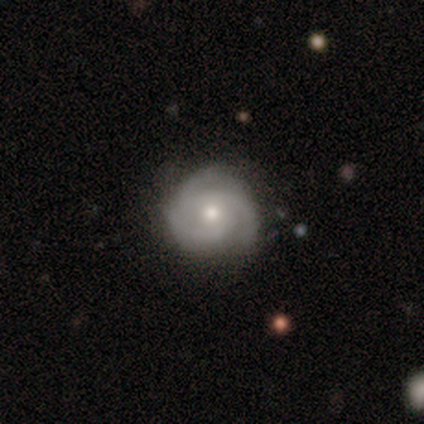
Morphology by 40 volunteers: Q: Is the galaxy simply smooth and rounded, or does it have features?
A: featured or disk — 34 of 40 (85%).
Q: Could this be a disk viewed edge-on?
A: no — 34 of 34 (100%).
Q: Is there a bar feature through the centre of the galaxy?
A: no — 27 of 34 (79%).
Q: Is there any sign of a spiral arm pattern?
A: yes — 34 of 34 (100%).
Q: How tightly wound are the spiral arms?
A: tight — 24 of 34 (71%).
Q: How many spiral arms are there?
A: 3 — 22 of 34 (65%).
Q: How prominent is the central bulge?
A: moderate — 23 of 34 (68%).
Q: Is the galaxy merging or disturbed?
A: none — 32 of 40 (80%).